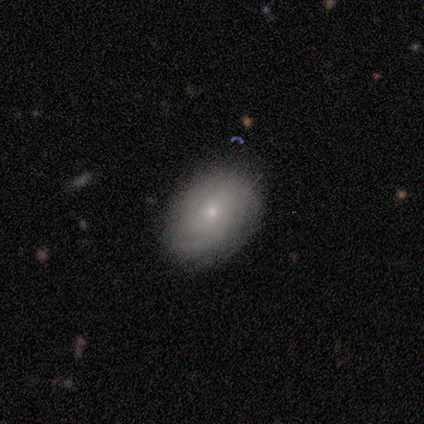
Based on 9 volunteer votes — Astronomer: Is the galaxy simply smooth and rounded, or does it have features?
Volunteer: featured or disk — 56% (runner-up: smooth, 33%).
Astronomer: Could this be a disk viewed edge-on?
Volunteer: no — 80%.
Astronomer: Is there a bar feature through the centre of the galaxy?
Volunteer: no — 75%.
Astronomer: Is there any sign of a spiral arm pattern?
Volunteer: yes — 100%.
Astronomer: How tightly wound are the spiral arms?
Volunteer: tight — 75%.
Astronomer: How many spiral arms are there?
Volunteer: can't tell — 75%.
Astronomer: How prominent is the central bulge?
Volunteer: small — 100%.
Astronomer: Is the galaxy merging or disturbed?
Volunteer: none — 75%.